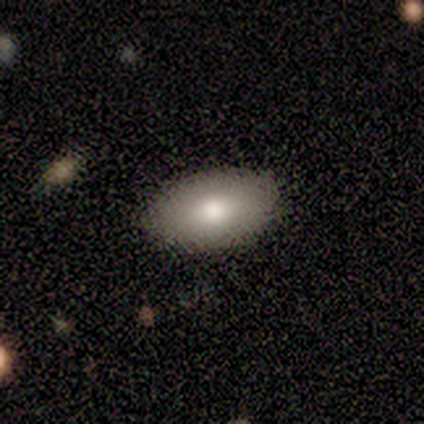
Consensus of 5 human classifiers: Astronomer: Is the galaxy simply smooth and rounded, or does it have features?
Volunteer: smooth — 100%.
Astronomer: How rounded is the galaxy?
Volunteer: in between — 100%.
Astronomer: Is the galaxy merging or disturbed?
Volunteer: none — 100%.